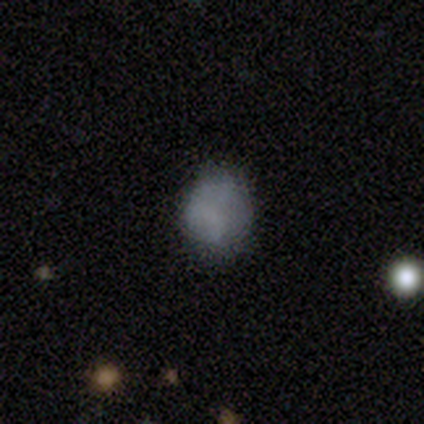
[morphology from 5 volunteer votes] This appears to be a smooth galaxy with no disk features (40%, tied with featured or disk) that is round (100%). Merging: none (50%).